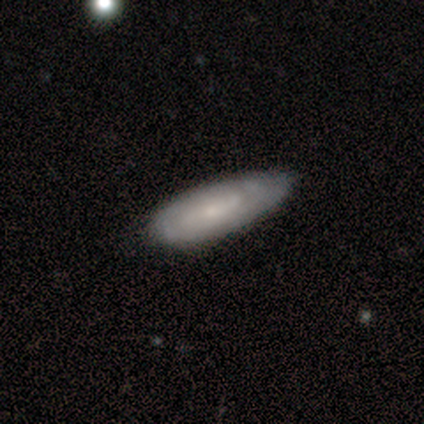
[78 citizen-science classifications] Q: Smooth or featured?
A: smooth (50%); tied with: featured or disk (50%)
Q: How rounded?
A: in between (69%); runner-up: cigar-shaped (26%)
Q: Merging?
A: none (38%); runner-up: minor disturbance (12%)